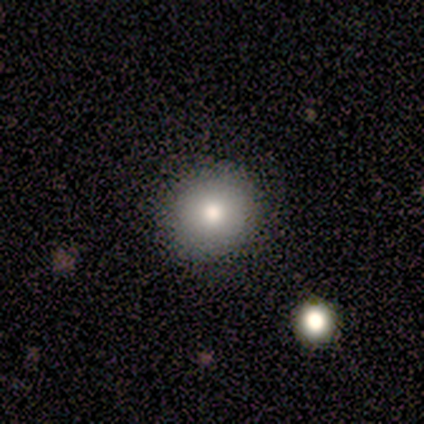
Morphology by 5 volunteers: Q: Smooth or featured?
A: smooth (100%)
Q: How rounded?
A: round (80%); runner-up: in between (20%)
Q: Merging?
A: none (100%)